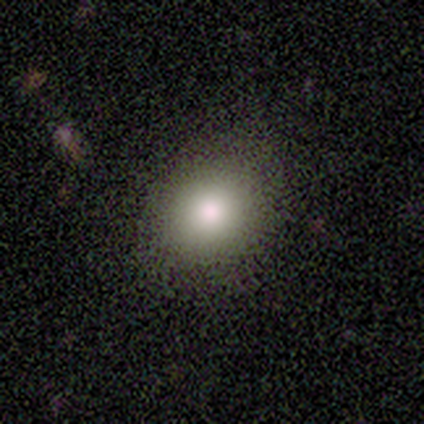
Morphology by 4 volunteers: A smooth galaxy with no disk features (50%) that is round (100%). Merging: none (67%).